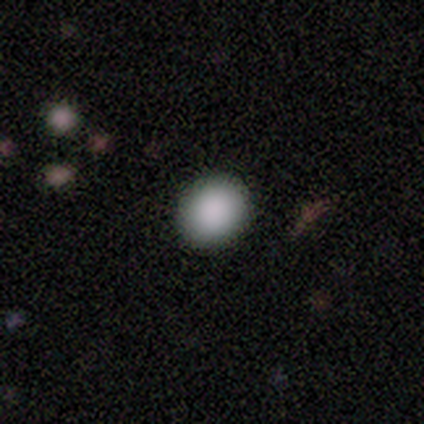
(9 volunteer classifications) Morphology: type=smooth (67%); roundness=round (100%); merging=none (88%).